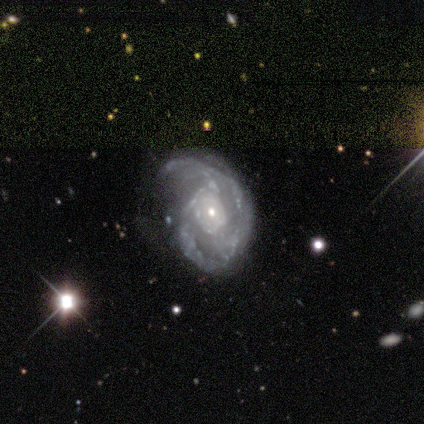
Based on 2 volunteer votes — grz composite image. It shows a featured or disk galaxy (100%) with a weak bar (50%, tied with no), 3 (100%) medium (100%) spiral arms (100%) and a small central bulge (100%). Merging: none (100%).